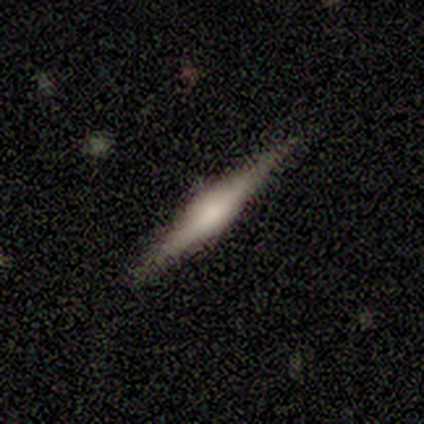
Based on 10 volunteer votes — Morphology: type=featured or disk (60%); edge-on=yes (100%); edge-on bulge=rounded (83%); merging=none (100%).